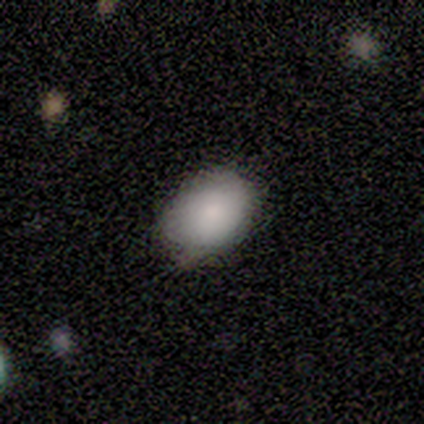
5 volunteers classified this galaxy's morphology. This is clearly a smooth galaxy (80%). How rounded: possibly round (50%, tied with in between). Merging: likely none (75%).